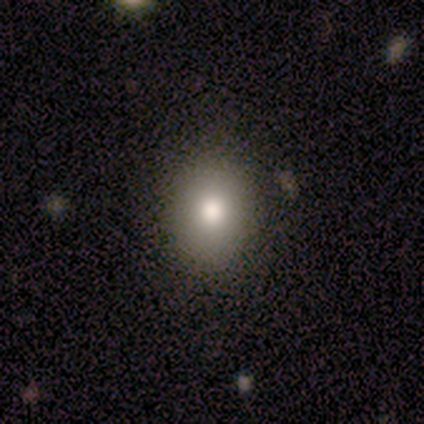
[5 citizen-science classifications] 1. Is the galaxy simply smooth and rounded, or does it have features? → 100% smooth, 0% featured or disk, 0% star or artifact.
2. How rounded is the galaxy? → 100% in between, 0% round, 0% cigar-shaped.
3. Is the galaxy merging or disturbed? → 100% none, 0% minor disturbance, 0% major disturbance, 0% merger.